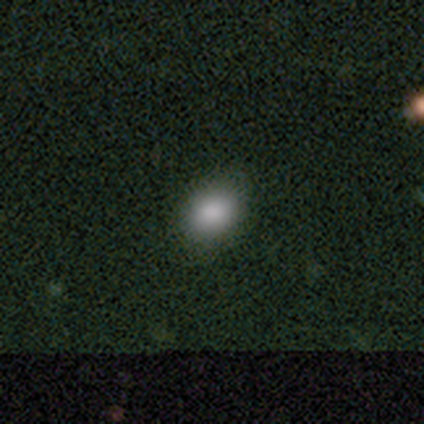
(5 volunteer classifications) This appears to be a smooth galaxy with no disk features (80%) that is in between round and cigar-shaped (75%). Merging: none (100%).